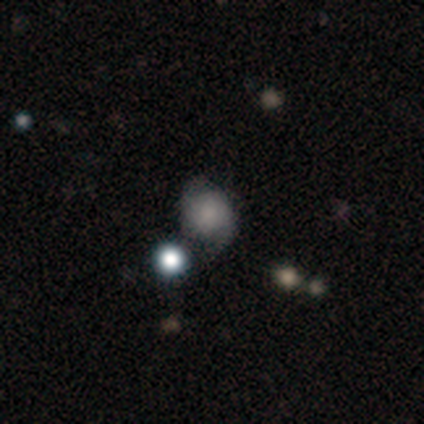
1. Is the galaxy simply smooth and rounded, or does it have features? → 60% featured or disk, 40% smooth, 0% star or artifact.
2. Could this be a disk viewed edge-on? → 100% no, 0% yes.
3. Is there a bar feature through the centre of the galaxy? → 100% no, 0% strong, 0% weak.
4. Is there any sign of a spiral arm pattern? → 100% yes, 0% no.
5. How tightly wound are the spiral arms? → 67% medium, 33% tight, 0% loose.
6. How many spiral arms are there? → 100% 2, 0% 1, 0% 3, 0% 4, 0% more than 4, 0% can't tell.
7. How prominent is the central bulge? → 67% none, 33% small, 0% dominant, 0% large, 0% moderate.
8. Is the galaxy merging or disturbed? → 80% none, 20% merger, 0% minor disturbance, 0% major disturbance.